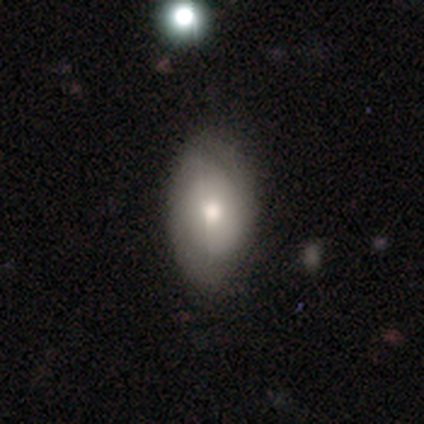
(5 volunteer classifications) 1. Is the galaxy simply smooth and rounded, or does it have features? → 60% smooth, 20% featured or disk, 20% star or artifact.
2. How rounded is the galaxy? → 100% in between, 0% round, 0% cigar-shaped.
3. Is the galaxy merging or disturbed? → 50% none, 25% minor disturbance, 25% major disturbance, 0% merger.